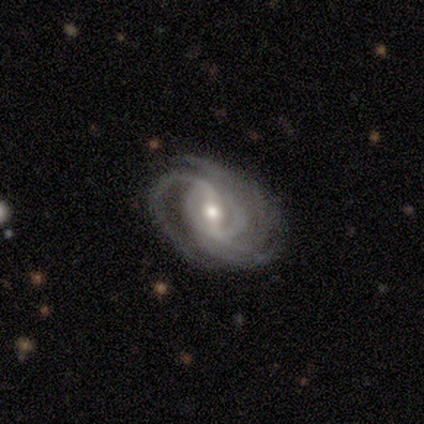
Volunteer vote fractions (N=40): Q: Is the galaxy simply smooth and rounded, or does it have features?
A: featured or disk — 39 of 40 (98%).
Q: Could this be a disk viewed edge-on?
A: no — 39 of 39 (100%).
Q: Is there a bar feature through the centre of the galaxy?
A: weak — 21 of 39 (54%).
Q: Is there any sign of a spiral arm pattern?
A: yes — 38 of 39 (97%).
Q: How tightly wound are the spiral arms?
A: tight — 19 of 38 (50%).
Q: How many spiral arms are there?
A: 3 — 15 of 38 (39%).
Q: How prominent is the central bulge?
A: moderate — 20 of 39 (51%).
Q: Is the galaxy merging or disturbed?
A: none — 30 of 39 (77%).